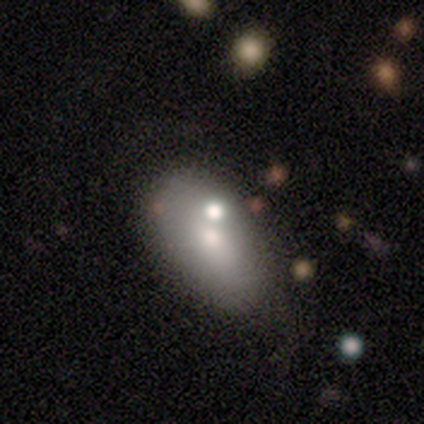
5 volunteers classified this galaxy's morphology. smooth-or-featured: smooth: 40% (tied) | featured or disk: 40% (tied) | star or artifact: 20%
  how-rounded: in between: 100% | round: 0% | cigar-shaped: 0%
  merging: none: 75% | major disturbance: 25% | minor disturbance: 0% | merger: 0%